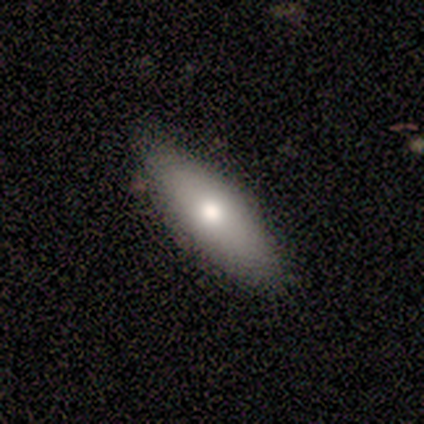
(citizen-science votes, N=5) Volunteers were most divided on "how rounded": in between: 60%, cigar-shaped: 40%, round: 0%. More confident: smooth or featured — smooth (100%); merging — none (100%).